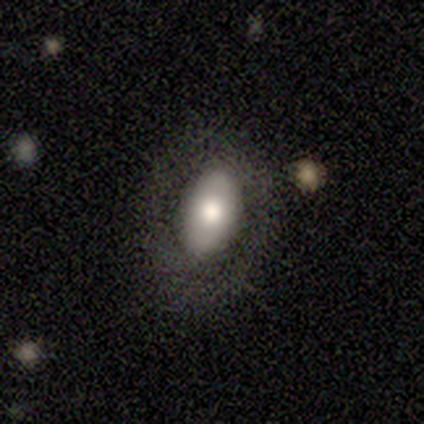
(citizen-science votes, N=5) featured or disk 60%, smooth 20%, star or artifact 20%. Down the decision tree: edge-on disk — no (100%); bar — no (67%); spiral arms — no (100%); bulge size — large (67%); merging — none (50%).